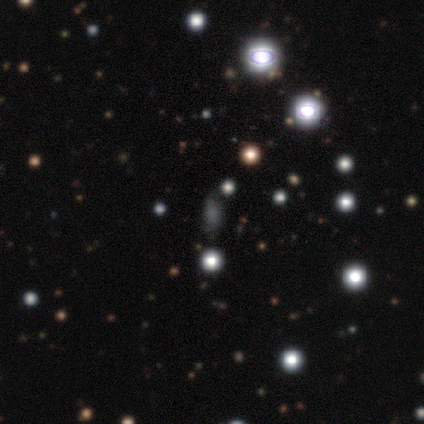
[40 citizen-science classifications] Volunteers were most divided on "how rounded": in between: 52%, round: 33%, cigar-shaped: 14%. More confident: merging — none (78%); smooth or featured — smooth (52%).